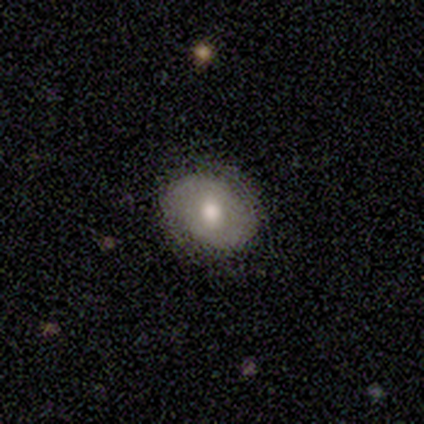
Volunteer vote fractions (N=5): smooth-or-featured: smooth: 80% | star or artifact: 20% | featured or disk: 0%
  how-rounded: round: 50% (tied) | in between: 50% (tied) | cigar-shaped: 0%
  merging: none: 100% | minor disturbance: 0% | major disturbance: 0% | merger: 0%